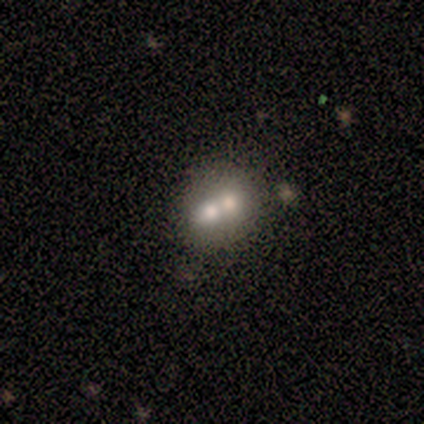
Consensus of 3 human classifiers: smooth-or-featured: featured or disk: 67% | smooth: 33% | star or artifact: 0%
  disk-edge-on: no: 100% | yes: 0%
    bar: no: 100% | strong: 0% | weak: 0%
    has-spiral-arms: no: 100% | yes: 0%
    bulge-size: large: 50% (tied) | moderate: 50% (tied) | dominant: 0% | small: 0% | none: 0%
  merging: merger: 67% | minor disturbance: 33% | none: 0% | major disturbance: 0%